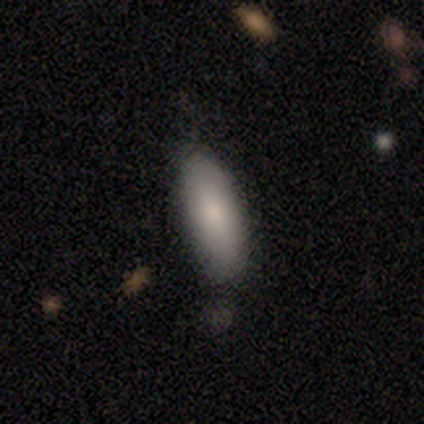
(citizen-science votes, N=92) smooth 88%, featured or disk 9%, star or artifact 3%. Down the decision tree: how rounded — in between (63%); merging — none (71%).